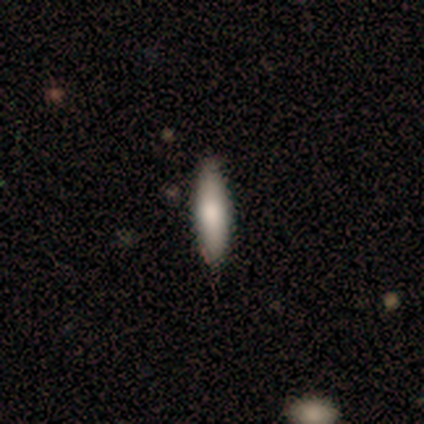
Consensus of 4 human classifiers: smooth-or-featured: smooth: 75% | featured or disk: 25% | star or artifact: 0%
  how-rounded: cigar-shaped: 67% | in between: 33% | round: 0%
  merging: none: 75% | minor disturbance: 25% | major disturbance: 0% | merger: 0%